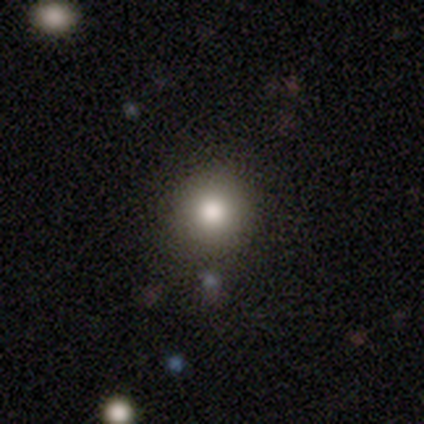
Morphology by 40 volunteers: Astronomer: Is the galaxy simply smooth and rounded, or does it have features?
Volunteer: smooth — 85%.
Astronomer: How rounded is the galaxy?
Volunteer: round — 97%.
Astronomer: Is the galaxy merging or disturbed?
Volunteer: none — 95%.